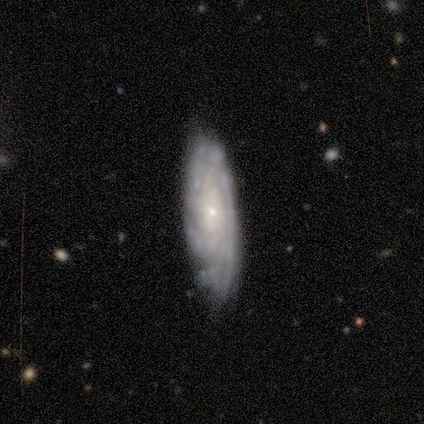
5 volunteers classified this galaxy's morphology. Smooth or featured? featured or disk (100%)
Edge-on disk? no (80%)
Bar? weak (50%, tied with no)
Spiral arms? yes (100%)
Spiral winding? tight (75%)
Spiral arm count? can't tell (75%)
Bulge size? small (75%)
Merging? none (80%)